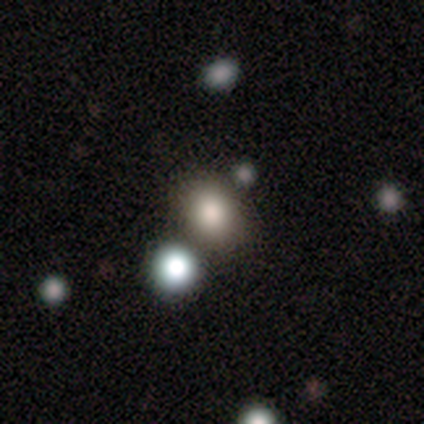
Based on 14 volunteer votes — Volunteers were most divided on "how rounded": in between: 58%, round: 42%, cigar-shaped: 0%. More confident: merging — none (100%); smooth or featured — smooth (86%).